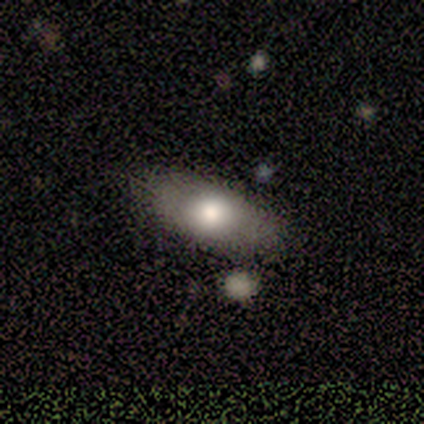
Smooth or featured?
  - smooth: 60% *
  - featured or disk: 40%
  - star or artifact: 0%
How rounded?
  - in between: 100% *
  - round: 0%
  - cigar-shaped: 0%
Merging?
  - none: 80% *
  - minor disturbance: 20%
  - major disturbance: 0%
  - merger: 0%